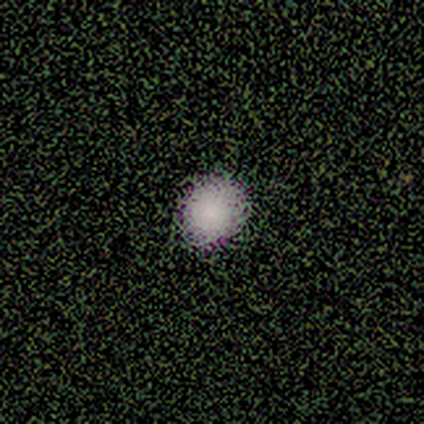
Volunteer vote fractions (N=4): Smooth or featured: smooth — 75% (featured or disk — 25%)
How rounded: round — 100%
Merging: none — 50% (minor disturbance — 25%)